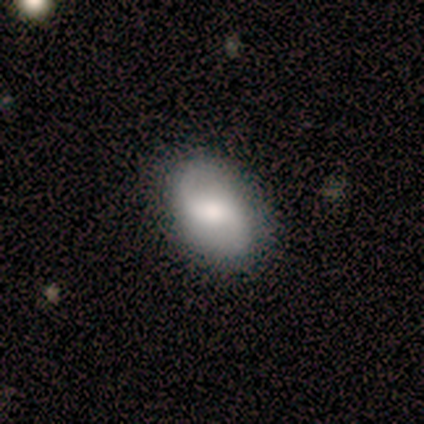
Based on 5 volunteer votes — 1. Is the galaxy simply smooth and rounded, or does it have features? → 60% smooth, 40% featured or disk, 0% star or artifact.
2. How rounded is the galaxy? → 67% round, 33% in between, 0% cigar-shaped.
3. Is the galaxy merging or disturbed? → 100% none, 0% minor disturbance, 0% major disturbance, 0% merger.